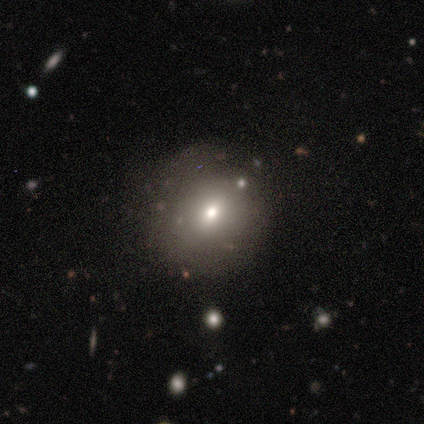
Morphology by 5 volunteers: Smooth or featured: smooth — 100%
How rounded: round — 80% (in between — 20%)
Merging: none — 100%